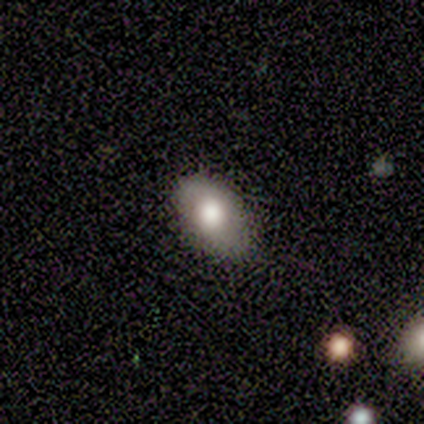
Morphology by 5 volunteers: Overall: smooth (40%, tied with featured or disk). How rounded: in between (100%). Merging: minor disturbance (75%).